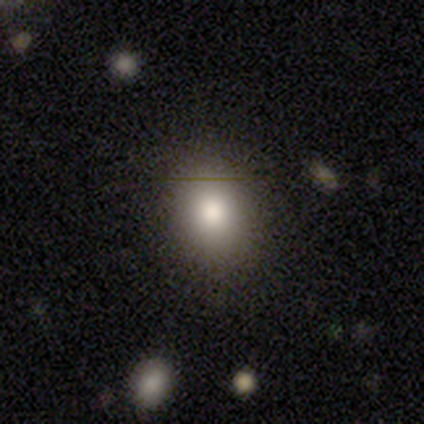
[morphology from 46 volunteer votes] type=smooth (78%); roundness=in between (53%); merging=none (88%).